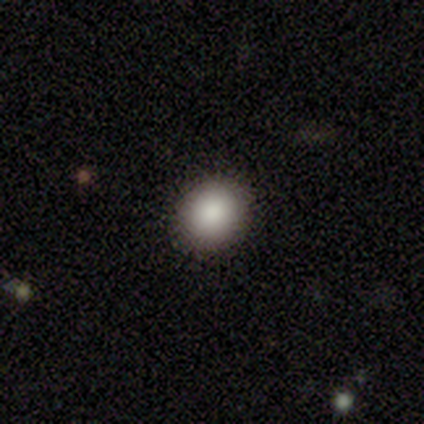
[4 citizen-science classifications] This is likely a smooth galaxy (75%). How rounded: likely in between (67%). Merging: clearly none (100%).